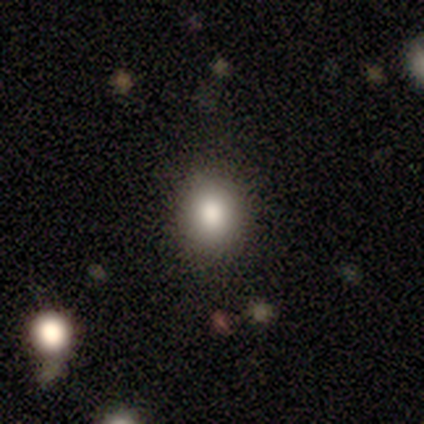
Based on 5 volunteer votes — This is clearly a smooth galaxy (80%). How rounded: clearly round (100%). Merging: clearly none (100%).